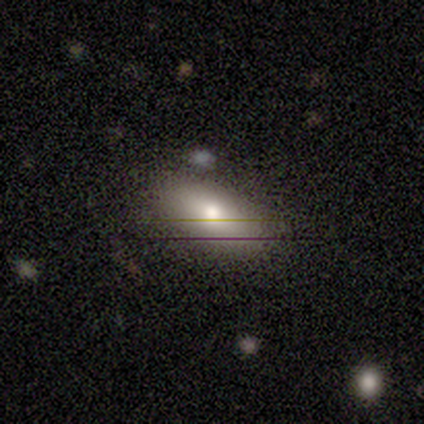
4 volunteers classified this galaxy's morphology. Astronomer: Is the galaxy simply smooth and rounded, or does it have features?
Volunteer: smooth — 100%.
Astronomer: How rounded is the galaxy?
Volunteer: in between — 100%.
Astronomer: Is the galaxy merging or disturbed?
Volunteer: none — 100%.